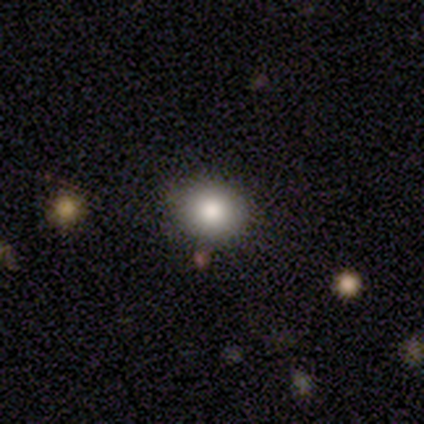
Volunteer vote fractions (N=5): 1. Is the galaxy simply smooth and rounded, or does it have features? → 60% smooth, 40% featured or disk, 0% star or artifact.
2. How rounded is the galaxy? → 67% round, 33% in between, 0% cigar-shaped.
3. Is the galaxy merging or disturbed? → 100% none, 0% minor disturbance, 0% major disturbance, 0% merger.